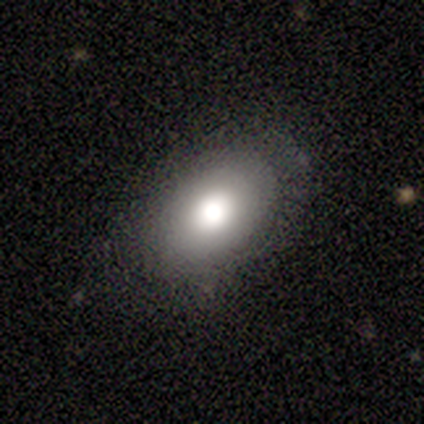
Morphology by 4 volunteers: Smooth or featured: smooth — 50% (tied with featured or disk — 50%)
How rounded: in between — 100%
Merging: none — 100%